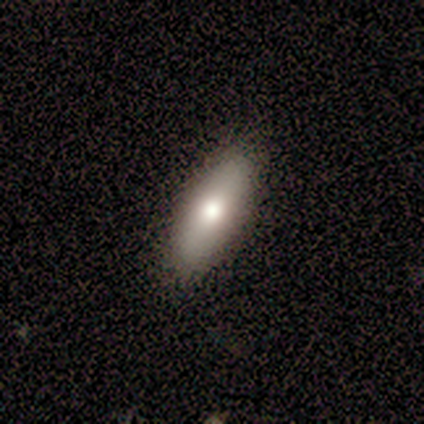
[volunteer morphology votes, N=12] A smooth galaxy with no disk features (75%) that is in between round and cigar-shaped (67%).

Vote fractions:
- Smooth or featured? smooth: 75% / featured or disk: 25% / star or artifact: 0%
- How rounded? in between: 67% / cigar-shaped: 33% / round: 0%
- Merging? none: 92% / minor disturbance: 8% / major disturbance: 0% / merger: 0%